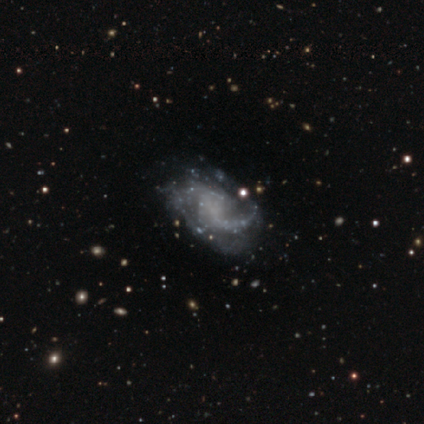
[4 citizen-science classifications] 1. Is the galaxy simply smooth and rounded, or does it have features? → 75% featured or disk, 25% star or artifact, 0% smooth.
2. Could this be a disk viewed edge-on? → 100% no, 0% yes.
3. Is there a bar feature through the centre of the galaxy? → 67% weak, 33% no, 0% strong.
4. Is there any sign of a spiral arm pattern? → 100% yes, 0% no.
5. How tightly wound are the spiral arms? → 100% medium, 0% tight, 0% loose.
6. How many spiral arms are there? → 67% 2, 33% 1, 0% 3, 0% 4, 0% more than 4, 0% can't tell.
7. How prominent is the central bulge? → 100% none, 0% dominant, 0% large, 0% moderate, 0% small.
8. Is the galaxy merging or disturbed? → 100% none, 0% minor disturbance, 0% major disturbance, 0% merger.